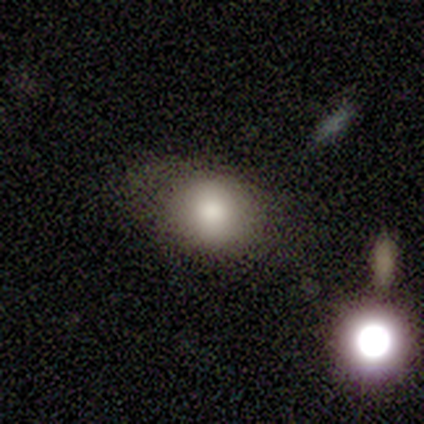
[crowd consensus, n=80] smooth_or_featured: smooth (p=0.76) [alt: star or artifact p=0.15]
how_rounded: round (p=0.56) [alt: in between p=0.44]
merging: none (p=0.34) [alt: minor disturbance p=0.13]